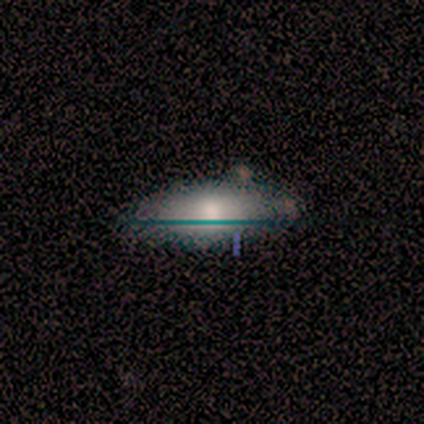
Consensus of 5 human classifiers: featured or disk 60%, smooth 20%, star or artifact 20%. Down the decision tree: edge-on disk — no (67%); bar — no (100%); spiral arms — no (100%); bulge size — moderate (100%); merging — none (50%, tied with minor disturbance).